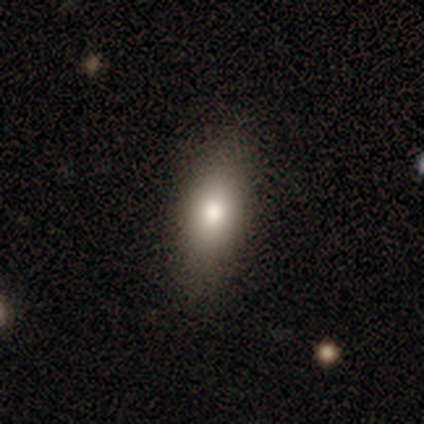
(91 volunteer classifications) Morphology: type=smooth (82%); roundness=in between (81%); merging=none (84%).